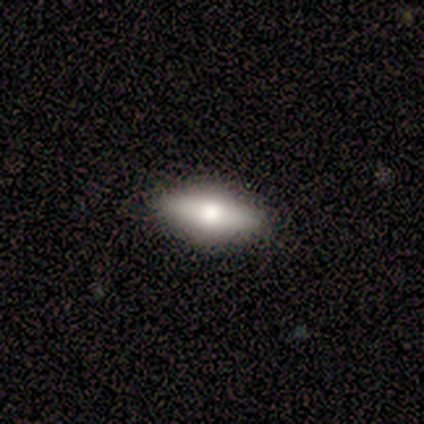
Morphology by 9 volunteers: Smooth or featured? 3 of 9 (33%, tied with featured or disk and star or artifact) said smooth. How rounded? 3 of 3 (100%) said in between. Merging? 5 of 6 (83%) said none.